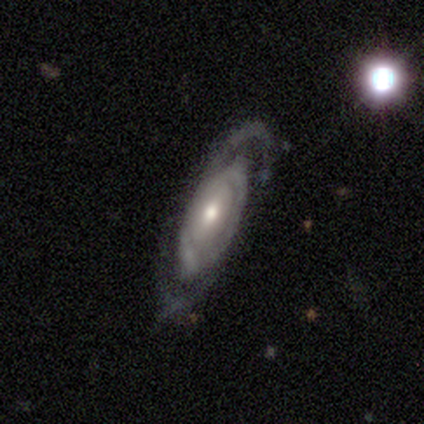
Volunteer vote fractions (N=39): Q: Smooth or featured?
A: featured or disk (82%); runner-up: smooth (15%)
Q: Edge-on disk?
A: no (84%); runner-up: yes (16%)
Q: Bar?
A: no (70%); runner-up: weak (26%)
Q: Spiral arms?
A: yes (70%); runner-up: no (30%)
Q: Spiral winding?
A: tight (68%); runner-up: medium (16%)
Q: Spiral arm count?
A: 2 (42%); tied with: can't tell (42%)
Q: Bulge size?
A: moderate (59%); runner-up: small (30%)
Q: Merging?
A: none (68%); runner-up: minor disturbance (18%)